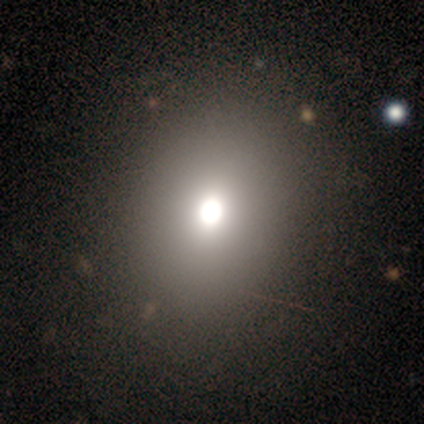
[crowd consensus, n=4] smooth_or_featured: smooth (p=1.00)
how_rounded: round (p=0.50) [tied with: in between p=0.50]
merging: none (p=0.75) [alt: minor disturbance p=0.25]